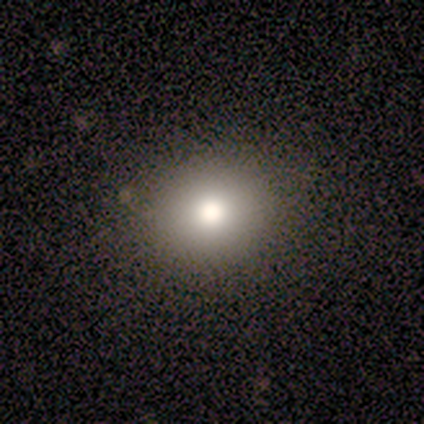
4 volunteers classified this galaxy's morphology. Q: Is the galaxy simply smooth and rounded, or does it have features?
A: smooth — 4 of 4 (100%).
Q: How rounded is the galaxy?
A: round — 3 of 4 (75%).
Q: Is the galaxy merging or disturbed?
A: none — 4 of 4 (100%).